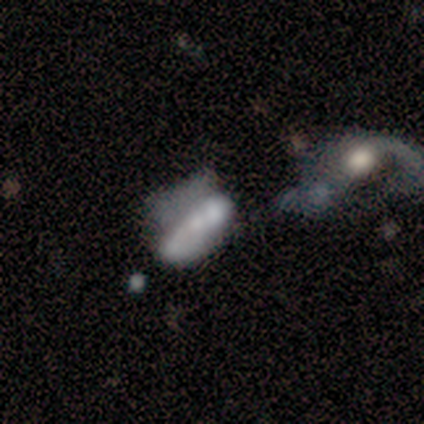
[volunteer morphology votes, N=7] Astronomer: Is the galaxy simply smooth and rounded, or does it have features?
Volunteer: featured or disk — 57% (runner-up: smooth, 43%).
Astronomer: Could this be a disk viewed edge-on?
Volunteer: no — 100%.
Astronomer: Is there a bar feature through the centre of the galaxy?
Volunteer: no — 50%.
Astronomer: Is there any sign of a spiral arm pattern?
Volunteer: yes — 75%.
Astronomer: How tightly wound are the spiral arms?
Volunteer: tight — 67%.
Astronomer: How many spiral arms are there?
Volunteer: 2 — 67%.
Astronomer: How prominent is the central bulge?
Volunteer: small — 75%.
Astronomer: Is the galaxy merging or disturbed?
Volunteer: major disturbance — 57%.